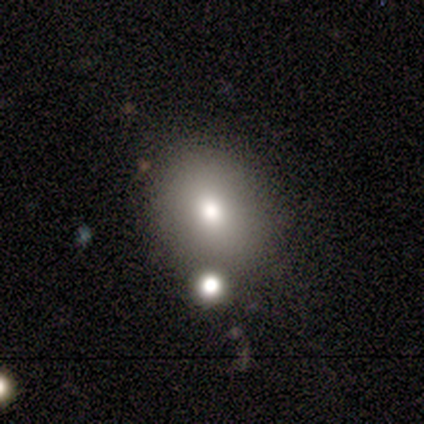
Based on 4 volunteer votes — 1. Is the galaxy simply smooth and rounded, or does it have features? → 100% smooth, 0% featured or disk, 0% star or artifact.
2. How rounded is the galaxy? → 100% round, 0% in between, 0% cigar-shaped.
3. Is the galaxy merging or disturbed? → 100% none, 0% minor disturbance, 0% major disturbance, 0% merger.